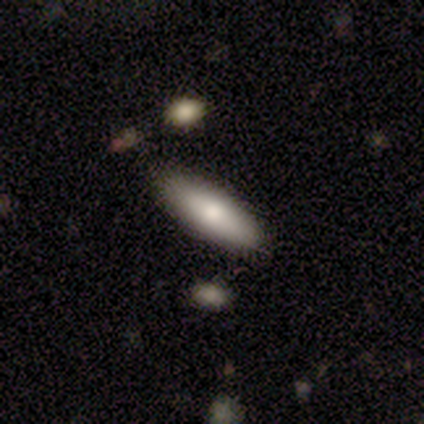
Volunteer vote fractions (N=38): A smooth galaxy with no disk features (66%) that is in between round and cigar-shaped (64%). Merging: none (74%).